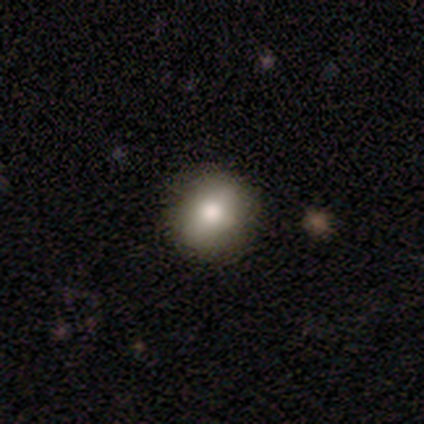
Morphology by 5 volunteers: smooth 80%, star or artifact 20%, featured or disk 0%. Down the decision tree: how rounded — round (75%); merging — none (100%).